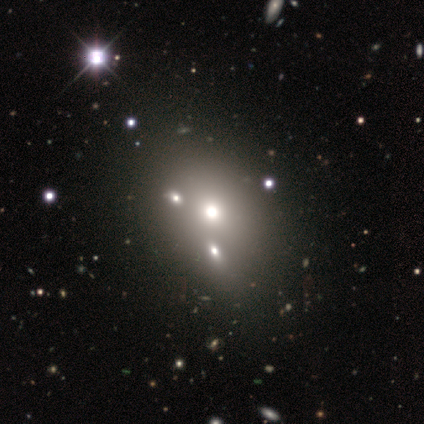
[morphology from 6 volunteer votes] Overall: star or artifact (67%).